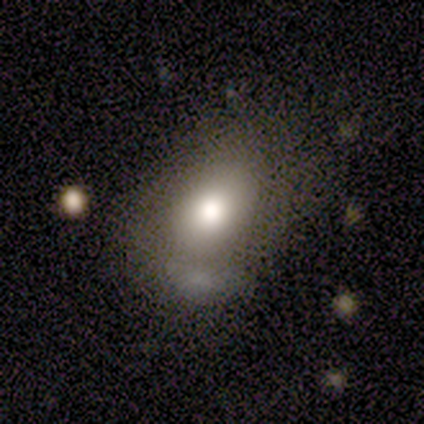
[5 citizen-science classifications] A smooth galaxy with no disk features (80%) that is round (50%, tied with in between).

Vote fractions:
- Smooth or featured? smooth: 80% / featured or disk: 20% / star or artifact: 0%
- How rounded? round: 50% (tied) / in between: 50% (tied) / cigar-shaped: 0%
- Merging? none: 40% (tied) / minor disturbance: 40% (tied) / major disturbance: 20% / merger: 0%